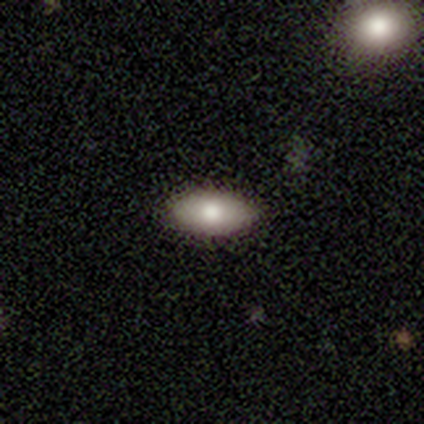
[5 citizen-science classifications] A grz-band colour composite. It shows a smooth galaxy with no disk features (80%) that is in between round and cigar-shaped (100%). Merging: none (100%).